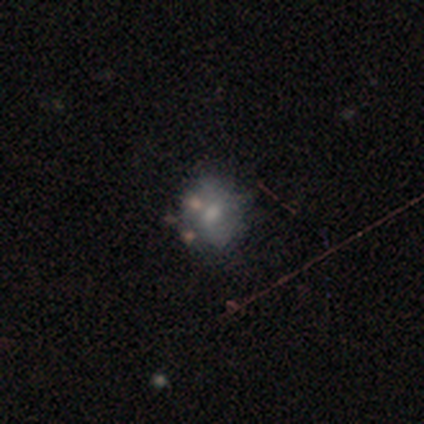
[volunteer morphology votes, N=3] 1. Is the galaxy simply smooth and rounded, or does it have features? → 67% star or artifact, 33% featured or disk, 0% smooth.